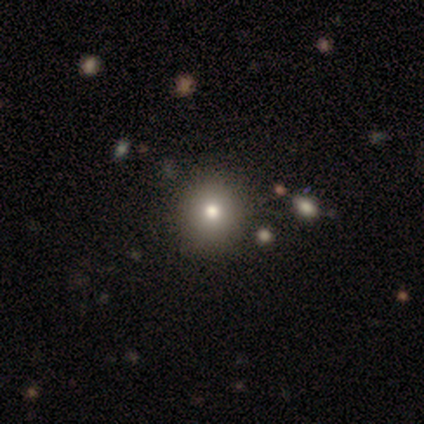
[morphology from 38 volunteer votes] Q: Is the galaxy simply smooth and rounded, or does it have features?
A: smooth — 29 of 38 (76%).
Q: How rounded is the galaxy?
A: round — 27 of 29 (93%).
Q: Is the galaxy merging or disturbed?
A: none — 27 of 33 (82%).